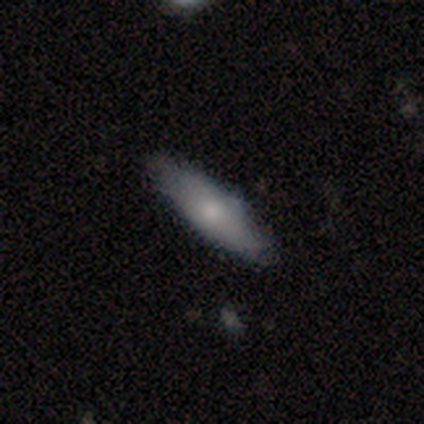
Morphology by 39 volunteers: This is likely a smooth galaxy (64%). How rounded: likely cigar-shaped (60%). Merging: clearly none (81%).